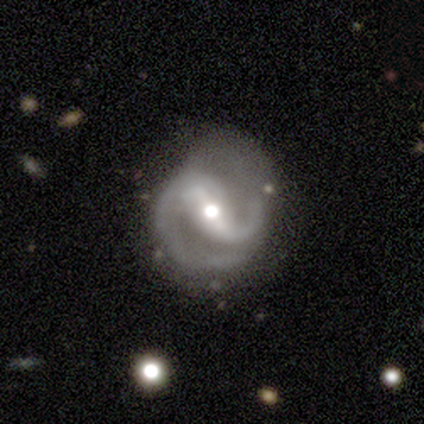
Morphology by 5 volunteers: A featured or disk galaxy (80%) with a strong bar (50%, tied with weak), 2 (100%) medium (75%) spiral arms (100%) and a moderate central bulge (75%). Merging: none (75%).